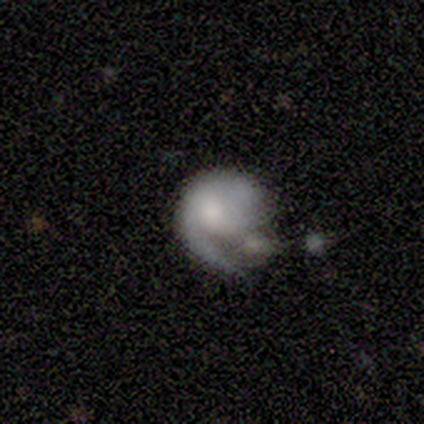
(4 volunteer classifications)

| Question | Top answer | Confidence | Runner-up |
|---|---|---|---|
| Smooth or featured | smooth | 75% | star or artifact (25%) |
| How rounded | round | 67% | in between (33%) |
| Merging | merger | 67% | minor disturbance (33%) |